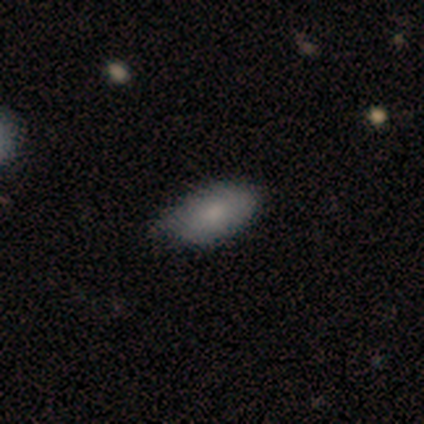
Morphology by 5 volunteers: Smooth or featured: smooth — 80% (featured or disk — 20%)
How rounded: in between — 100%
Merging: none — 80% (minor disturbance — 20%)